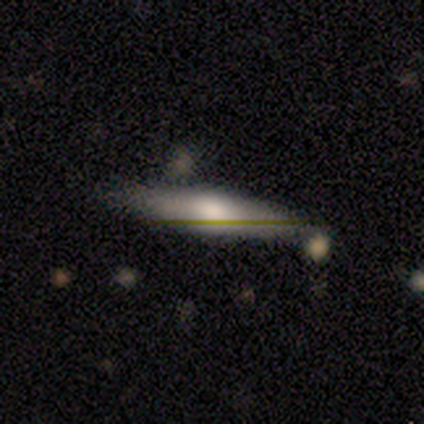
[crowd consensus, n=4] Smooth or featured?
  - smooth: 75% *
  - featured or disk: 25%
  - star or artifact: 0%
How rounded?
  - cigar-shaped: 100% *
  - round: 0%
  - in between: 0%
Merging?
  - none: 100% *
  - minor disturbance: 0%
  - major disturbance: 0%
  - merger: 0%